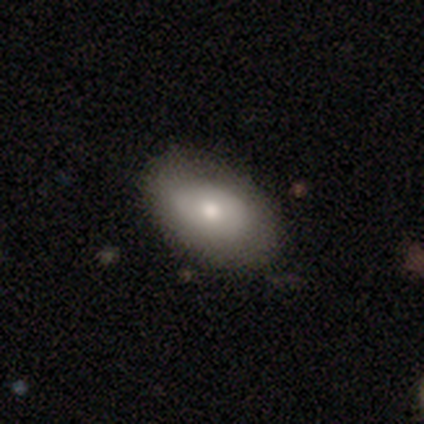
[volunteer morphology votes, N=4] Smooth or featured?
  - smooth: 75% *
  - featured or disk: 25%
  - star or artifact: 0%
How rounded?
  - in between: 100% *
  - round: 0%
  - cigar-shaped: 0%
Merging?
  - none: 100% *
  - minor disturbance: 0%
  - major disturbance: 0%
  - merger: 0%